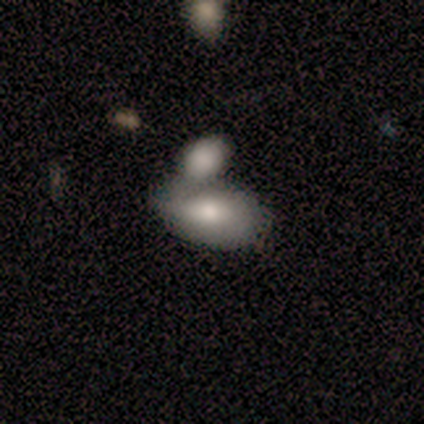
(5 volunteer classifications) A smooth galaxy with no disk features (60%) that is in between round and cigar-shaped (100%). Merging: merger (60%).